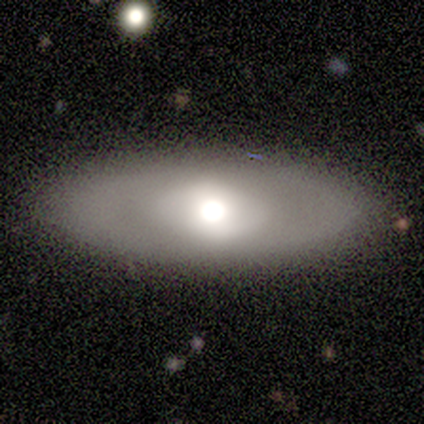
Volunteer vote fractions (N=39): Q: Smooth or featured?
A: smooth (62%); runner-up: featured or disk (36%)
Q: How rounded?
A: in between (88%); runner-up: cigar-shaped (12%)
Q: Merging?
A: none (84%); runner-up: minor disturbance (8%)